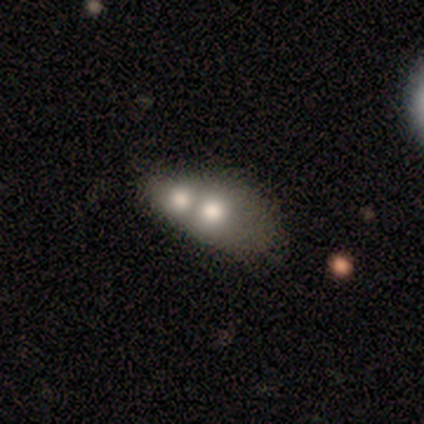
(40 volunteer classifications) Smooth or featured? 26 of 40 (65%) said smooth. How rounded? 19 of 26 (73%) said in between. Merging? 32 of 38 (84%) said merger.